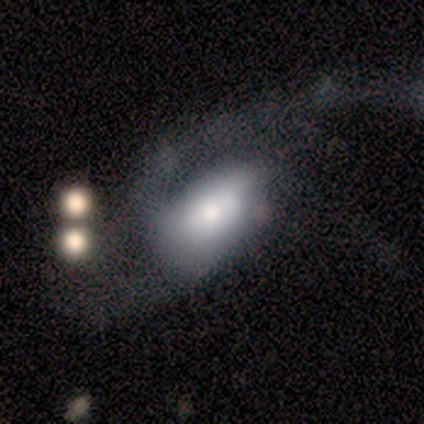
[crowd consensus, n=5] Smooth or featured?
  - smooth: 60% *
  - featured or disk: 40%
  - star or artifact: 0%
How rounded?
  - in between: 100% *
  - round: 0%
  - cigar-shaped: 0%
Merging?
  - major disturbance: 60% *
  - none: 20%
  - minor disturbance: 20%
  - merger: 0%